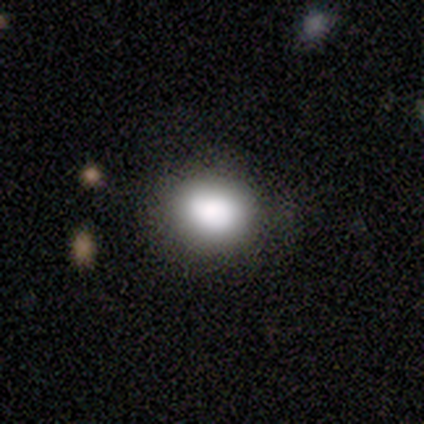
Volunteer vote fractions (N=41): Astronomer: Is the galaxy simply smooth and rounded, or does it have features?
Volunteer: smooth — 88%.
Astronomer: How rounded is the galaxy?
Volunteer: round — 53% (runner-up: in between, 44%).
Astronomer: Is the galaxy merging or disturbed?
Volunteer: none — 76%.